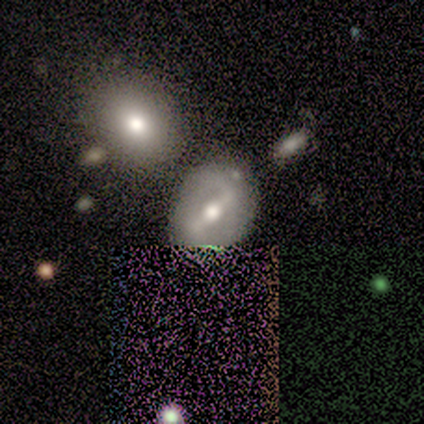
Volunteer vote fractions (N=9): Volunteers were most divided on "spiral winding" (2-way tie): tight: 40%, loose: 40%, medium: 20%; "bulge size" (2-way tie): moderate: 50%, small: 50%, dominant: 0%, large: 0%, none: 0%. More confident: edge-on disk — no (100%); spiral arm count — 2 (100%); smooth or featured — featured or disk (89%); merging — none (89%); spiral arms — yes (62%); bar — strong (50%).